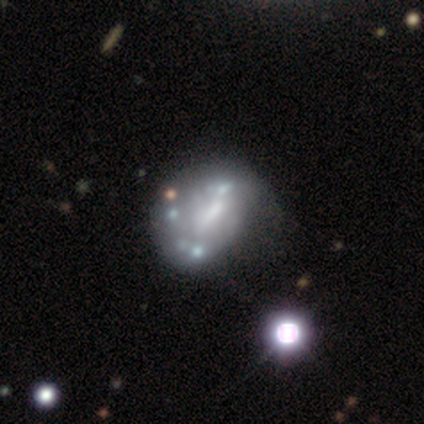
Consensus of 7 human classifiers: A featured or disk galaxy (86%) with no bar (83%), no spiral arms (100%) and a moderate central bulge (33%, tied with none).

Vote fractions:
- Smooth or featured? featured or disk: 86% / smooth: 14% / star or artifact: 0%
- Edge-on disk? no: 100% / yes: 0%
- Bar? no: 83% / weak: 17% / strong: 0%
- Spiral arms? no: 100% / yes: 0%
- Bulge size? moderate: 33% (tied) / none: 33% (tied) / dominant: 17% / small: 17% / large: 0%
- Merging? minor disturbance: 29% (tied) / major disturbance: 29% (tied) / merger: 29% (tied) / none: 14%